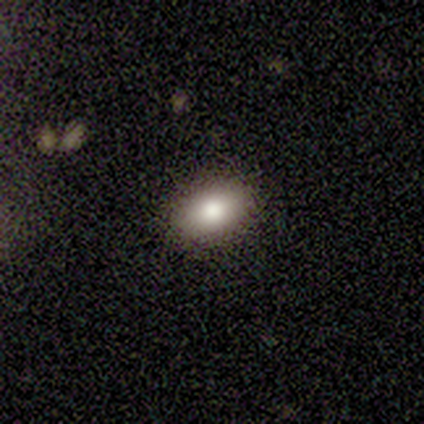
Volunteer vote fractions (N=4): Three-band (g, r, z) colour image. It shows a smooth galaxy with no disk features (50%) that is in between round and cigar-shaped (100%). Merging: none (100%).